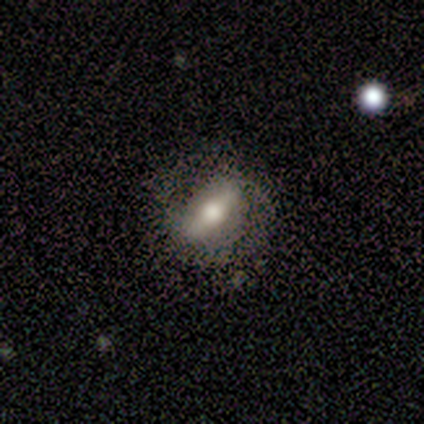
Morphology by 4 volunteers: featured or disk 75%, smooth 25%, star or artifact 0%. Down the decision tree: edge-on disk — no (67%); bar — strong (50%, tied with weak); spiral arms — yes (100%); spiral arm count — can't tell (100%); spiral winding — tight (50%, tied with medium); bulge size — moderate (50%, tied with none); merging — none (75%).